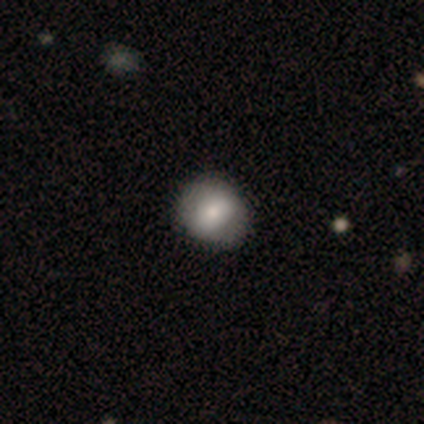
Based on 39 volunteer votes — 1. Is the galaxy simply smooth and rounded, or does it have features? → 62% smooth, 33% featured or disk, 5% star or artifact.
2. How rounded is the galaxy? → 75% round, 25% in between, 0% cigar-shaped.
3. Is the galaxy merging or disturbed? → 59% none, 11% minor disturbance, 3% merger, 0% major disturbance.